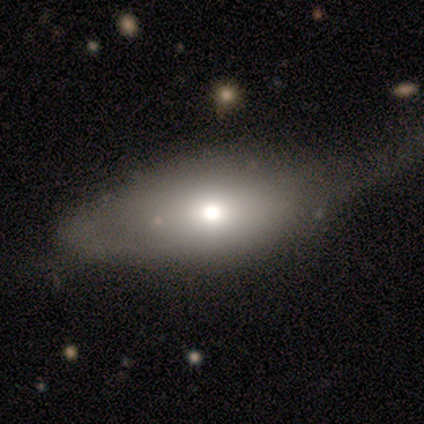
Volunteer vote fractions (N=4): Smooth or featured? 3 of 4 (75%) said smooth. How rounded? 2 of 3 (67%) said round. Merging? 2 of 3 (67%) said major disturbance.